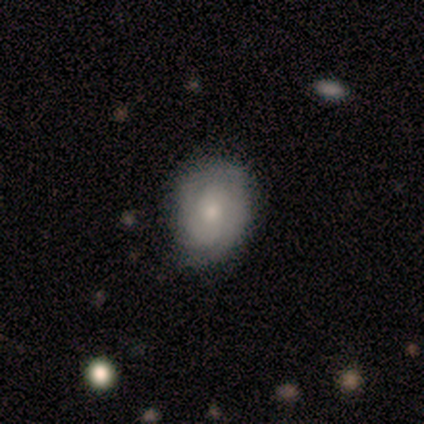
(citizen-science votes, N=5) A featured or disk galaxy (80%) with no bar (100%), 2 (50%, tied with can't tell) tight (50%, tied with medium) spiral arms (100%) and a moderate central bulge (50%, tied with small). Merging: none (80%).